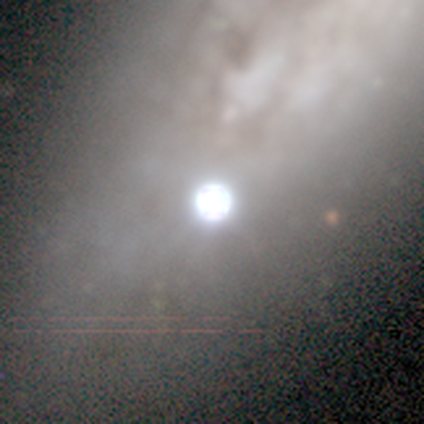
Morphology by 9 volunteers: star or artifact 67%, smooth 22%, featured or disk 11%.